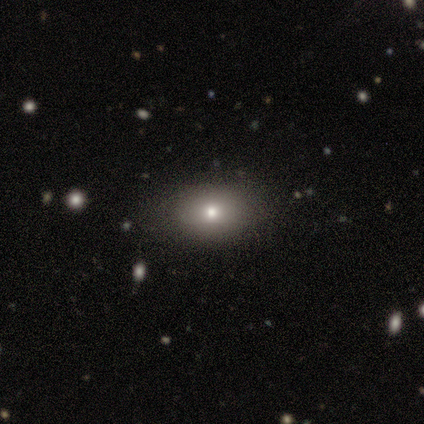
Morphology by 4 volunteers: Smooth or featured?
  - smooth: 75% *
  - star or artifact: 25%
  - featured or disk: 0%
How rounded?
  - round: 67% *
  - in between: 33%
  - cigar-shaped: 0%
Merging?
  - none: 67% *
  - minor disturbance: 33%
  - major disturbance: 0%
  - merger: 0%